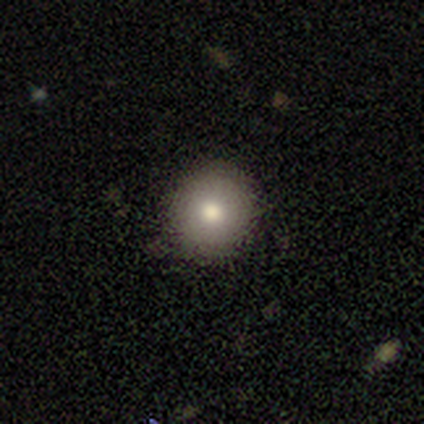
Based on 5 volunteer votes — Smooth or featured?
  - smooth: 80% *
  - star or artifact: 20%
  - featured or disk: 0%
How rounded?
  - round: 100% *
  - in between: 0%
  - cigar-shaped: 0%
Merging?
  - none: 100% *
  - minor disturbance: 0%
  - major disturbance: 0%
  - merger: 0%